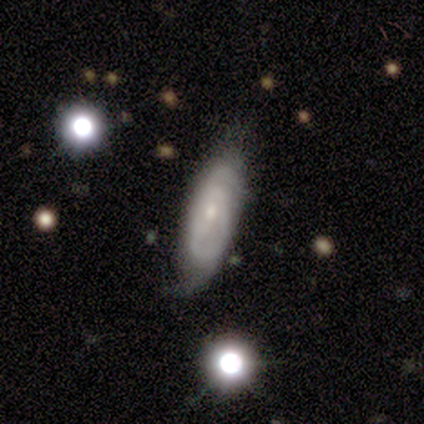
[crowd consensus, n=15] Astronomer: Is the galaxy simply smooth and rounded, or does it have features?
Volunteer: featured or disk — 67%.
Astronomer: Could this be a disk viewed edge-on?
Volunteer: no — 90%.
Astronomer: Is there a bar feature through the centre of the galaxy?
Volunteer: weak — 56% (runner-up: no, 44%).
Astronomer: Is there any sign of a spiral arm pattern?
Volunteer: yes — 89%.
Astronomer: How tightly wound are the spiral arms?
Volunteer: tight — 38%, tied with medium at 38%.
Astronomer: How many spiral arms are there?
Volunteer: can't tell — 62%.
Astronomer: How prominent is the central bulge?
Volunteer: small — 67%.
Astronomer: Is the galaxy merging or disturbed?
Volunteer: none — 93%.